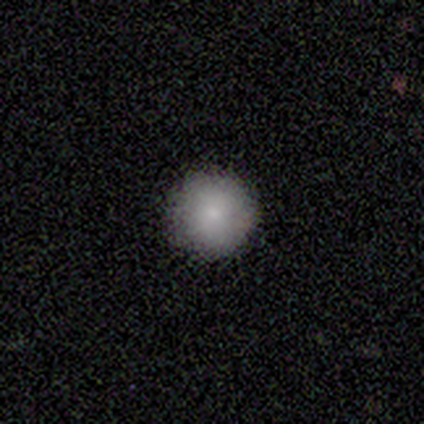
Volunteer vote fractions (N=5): Overall: smooth (80%). How rounded: round (100%). Merging: none (100%).